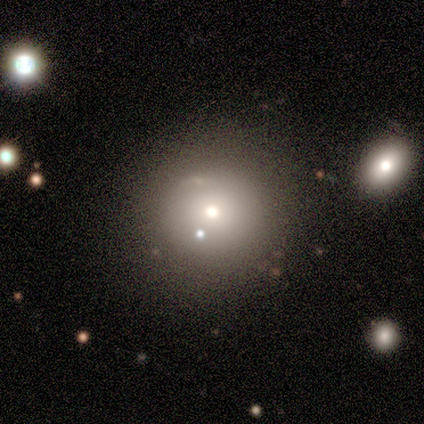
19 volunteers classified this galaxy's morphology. This is possibly a smooth galaxy (58%). How rounded: clearly round (91%). Merging: likely none (65%).